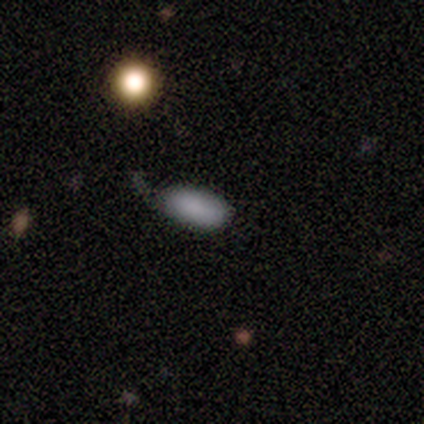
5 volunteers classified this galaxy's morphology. type=smooth (60%); roundness=in between (100%); merging=none (33%, tied with minor disturbance and major disturbance).